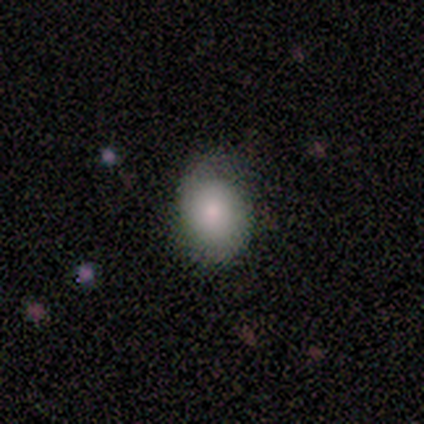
A smooth galaxy with no disk features (80%) that is in between round and cigar-shaped (75%).

Vote fractions:
- Smooth or featured? smooth: 80% / featured or disk: 20% / star or artifact: 0%
- How rounded? in between: 75% / round: 25% / cigar-shaped: 0%
- Merging? minor disturbance: 60% / none: 40% / major disturbance: 0% / merger: 0%